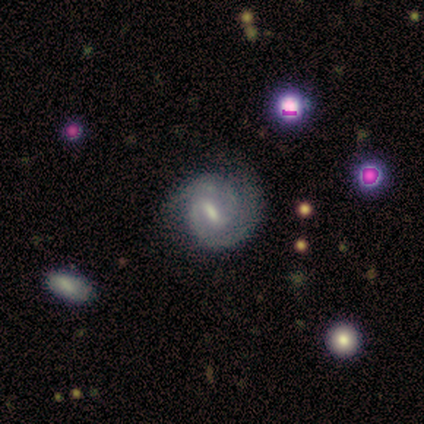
This is clearly a featured or disk galaxy (100%). It is clearly not viewed edge-on (100%). Bar: likely strong (71%). Spiral arm pattern: clearly yes (100%). Spiral arm count: clearly 2 (100%). Spiral winding: likely medium (71%). Central bulge: marginally moderate (43%). Merging: clearly none (100%).